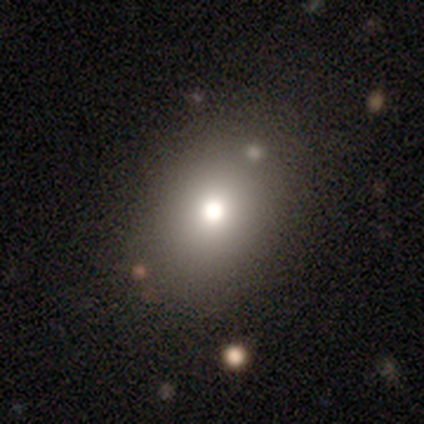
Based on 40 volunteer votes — Overall: smooth (68%). How rounded: round (48%, tied with in between). Merging: none (71%).